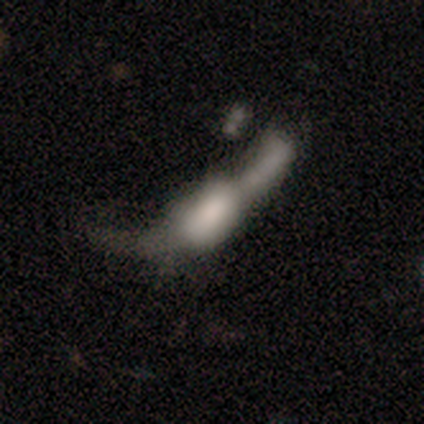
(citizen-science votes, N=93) Volunteers were most divided on "bulge size" (2-way tie): large: 28%, none: 28%, moderate: 21%, dominant: 14%, small: 10%. Remaining: spiral arms — no (93%); bar — no (72%); edge-on disk — no (66%); smooth or featured — featured or disk (47%); merging — merger (42%).